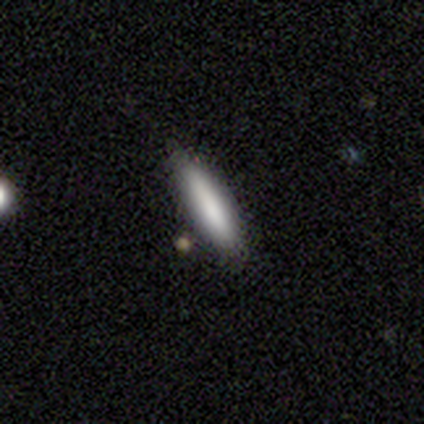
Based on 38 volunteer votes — smooth_or_featured: smooth (p=0.74) [alt: featured or disk p=0.18]
how_rounded: cigar-shaped (p=0.82) [alt: in between p=0.18]
merging: none (p=0.74) [alt: minor disturbance p=0.20]